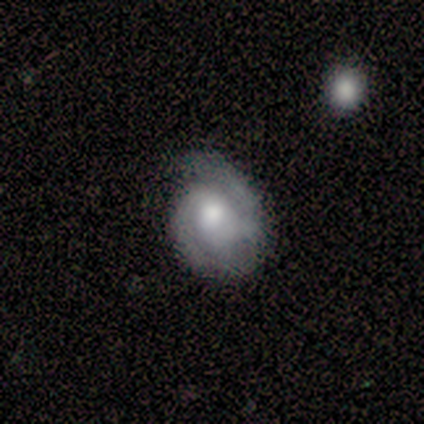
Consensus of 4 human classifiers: Q: Smooth or featured?
A: featured or disk (100%)
Q: Edge-on disk?
A: no (100%)
Q: Bar?
A: weak (50%); tied with: no (50%)
Q: Spiral arms?
A: yes (75%); runner-up: no (25%)
Q: Spiral winding?
A: tight (33%); tied with: medium (33%); loose (33%)
Q: Spiral arm count?
A: 2 (100%)
Q: Bulge size?
A: moderate (100%)
Q: Merging?
A: none (50%); runner-up: minor disturbance (25%)